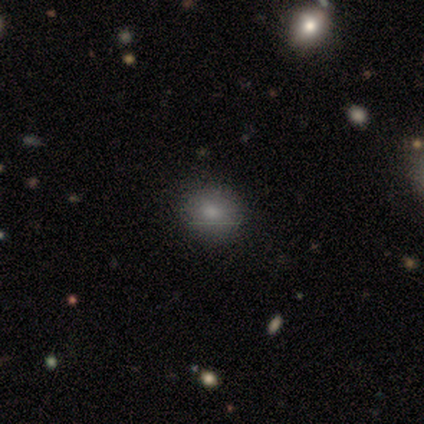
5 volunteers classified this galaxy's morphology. smooth 100%, featured or disk 0%, star or artifact 0%. Down the decision tree: how rounded — in between (60%); merging — none (80%).